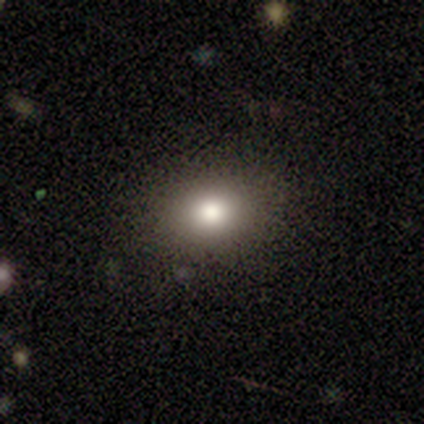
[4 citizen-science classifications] Smooth or featured?
  - smooth: 100% *
  - featured or disk: 0%
  - star or artifact: 0%
How rounded?
  - round: 50% * (tied)
  - in between: 50% * (tied)
  - cigar-shaped: 0%
Merging?
  - none: 75% *
  - minor disturbance: 25%
  - major disturbance: 0%
  - merger: 0%